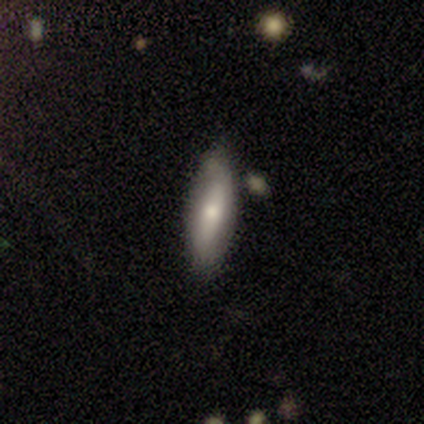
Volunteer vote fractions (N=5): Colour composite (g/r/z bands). It shows a featured or disk galaxy (80%) with no bar (75%), no spiral arms (75%) and a small central bulge (75%). Merging: none (80%).